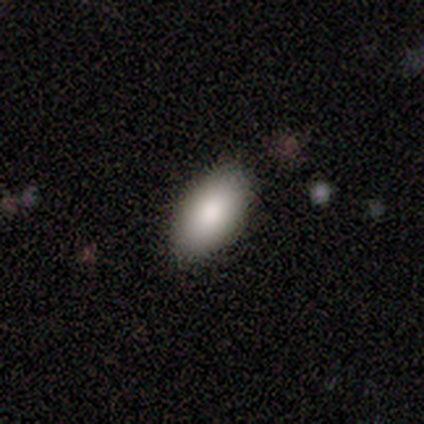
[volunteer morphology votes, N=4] Q: Smooth or featured?
A: smooth (75%); runner-up: featured or disk (25%)
Q: How rounded?
A: in between (100%)
Q: Merging?
A: none (100%)